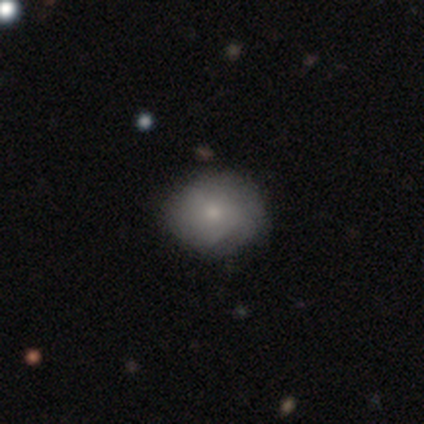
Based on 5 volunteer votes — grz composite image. It shows a smooth galaxy with no disk features (60%) that is round (67%). Merging: none (100%).